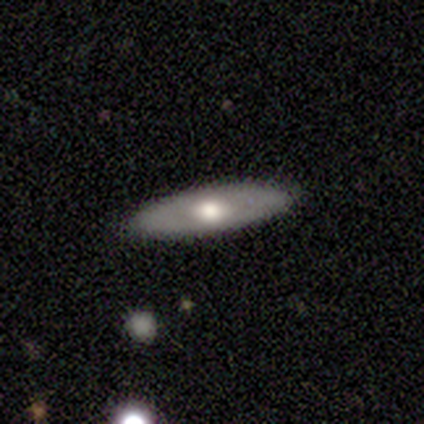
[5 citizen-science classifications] Smooth or featured? 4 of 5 (80%) said featured or disk. Edge-on disk? 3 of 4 (75%) said no. Bar? 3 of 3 (100%) said no. Spiral arms? 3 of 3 (100%) said no. Bulge size? 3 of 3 (100%) said moderate. Merging? 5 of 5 (100%) said none.